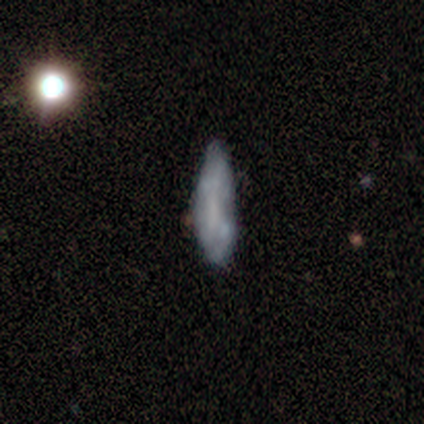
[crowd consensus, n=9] A smooth galaxy with no disk features (56%) that is in between round and cigar-shaped (80%).

Vote fractions:
- Smooth or featured? smooth: 56% / featured or disk: 44% / star or artifact: 0%
- How rounded? in between: 80% / cigar-shaped: 20% / round: 0%
- Merging? minor disturbance: 56% / none: 44% / major disturbance: 0% / merger: 0%